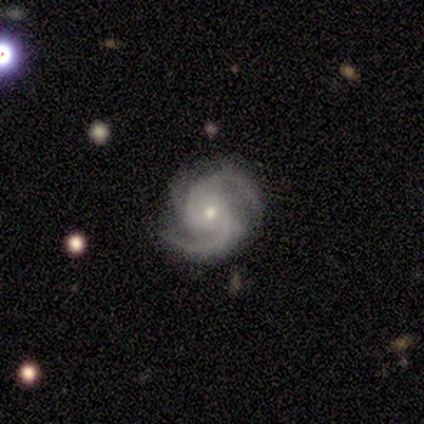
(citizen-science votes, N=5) Smooth or featured? 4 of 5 (80%) said featured or disk. Edge-on disk? 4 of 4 (100%) said no. Bar? 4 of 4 (100%) said no. Spiral arms? 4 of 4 (100%) said yes. Spiral winding? 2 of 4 (50%, tied with medium) said tight. Spiral arm count? 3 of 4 (75%) said 2. Bulge size? 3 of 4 (75%) said small. Merging? 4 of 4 (100%) said none.